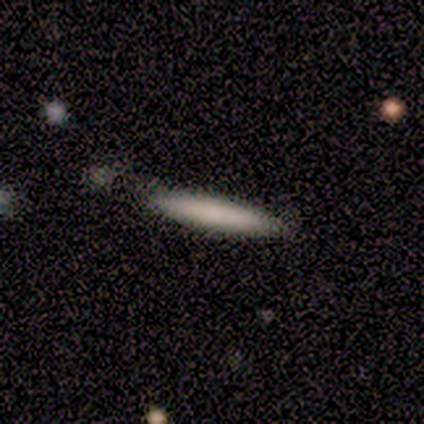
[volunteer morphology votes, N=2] Smooth or featured?
  - smooth: 50% * (tied)
  - featured or disk: 50% * (tied)
  - star or artifact: 0%
How rounded?
  - cigar-shaped: 100% *
  - round: 0%
  - in between: 0%
Merging?
  - none: 100% *
  - minor disturbance: 0%
  - major disturbance: 0%
  - merger: 0%